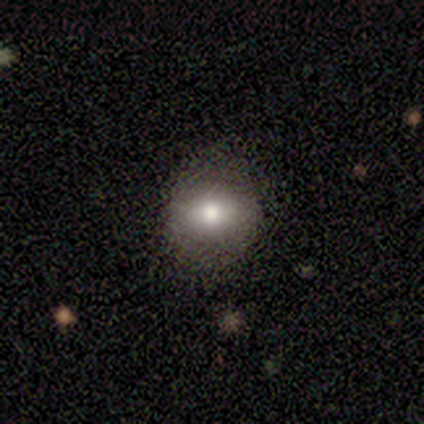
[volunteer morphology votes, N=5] Smooth or featured: smooth — 80% (featured or disk — 20%)
How rounded: round — 75% (in between — 25%)
Merging: none — 80% (major disturbance — 20%)